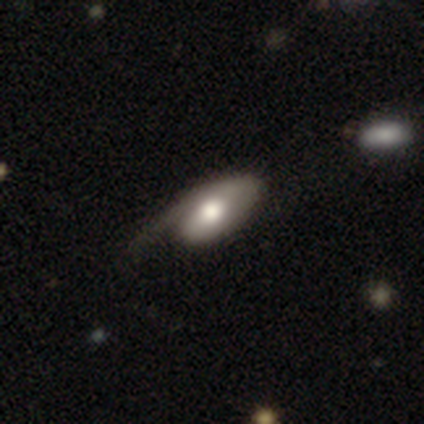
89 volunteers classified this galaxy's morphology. smooth_or_featured: featured or disk (p=0.52) [alt: smooth p=0.44]
disk_edge_on: no (p=0.80) [alt: yes p=0.20]
bar: no (p=0.76) [alt: weak p=0.22]
has_spiral_arms: yes (p=0.68) [alt: no p=0.32]
spiral_winding: loose (p=0.48) [alt: tight p=0.36]
spiral_arm_count: 1 (p=0.96) [alt: 2 p=0.04]
bulge_size: moderate (p=0.49) [alt: large p=0.38]
merging: major disturbance (p=0.36) [alt: minor disturbance p=0.33]